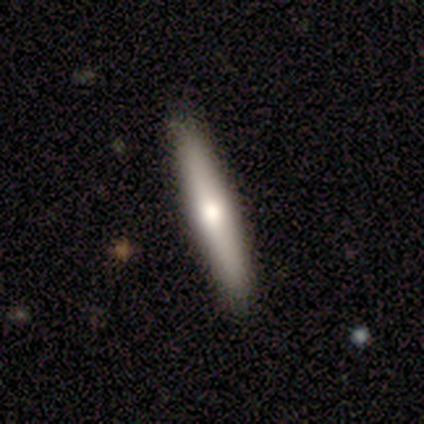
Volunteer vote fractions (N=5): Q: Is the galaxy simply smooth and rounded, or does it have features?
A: smooth — 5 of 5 (100%).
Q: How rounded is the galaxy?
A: cigar-shaped — 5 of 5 (100%).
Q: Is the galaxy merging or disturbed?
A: none — 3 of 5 (60%).